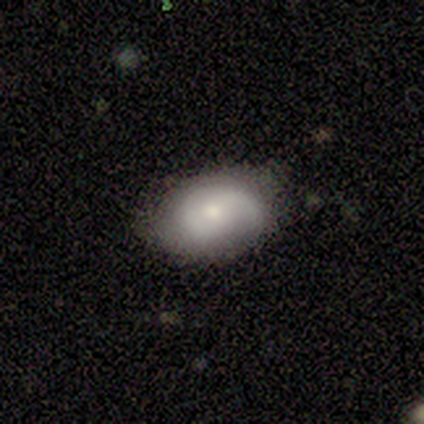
This appears to be a smooth galaxy with no disk features (75%) that is in between round and cigar-shaped (67%). Merging: none (75%).